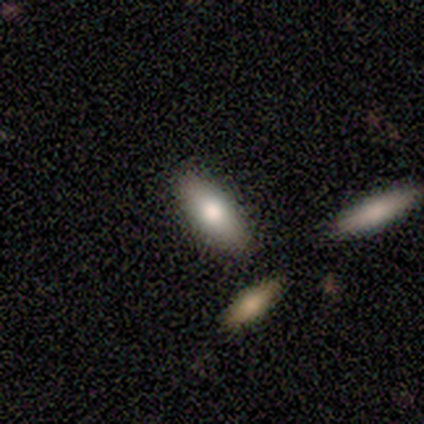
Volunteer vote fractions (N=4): Morphology: type=smooth (75%); roundness=in between (67%); merging=none (75%).